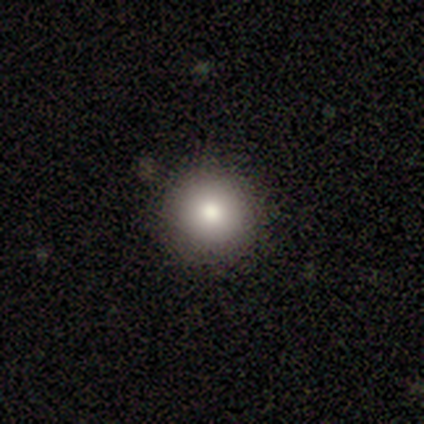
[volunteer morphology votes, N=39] Volunteers were most divided on "smooth or featured": smooth: 79%, star or artifact: 15%, featured or disk: 5%. More confident: merging — none (100%); how rounded — round (94%).